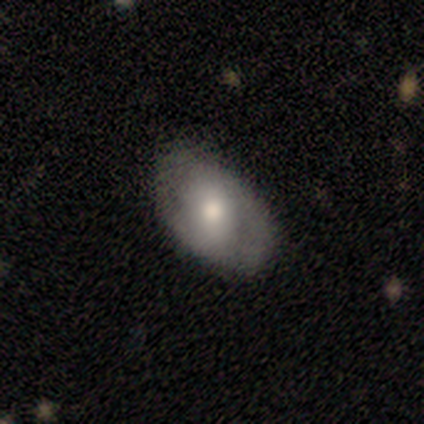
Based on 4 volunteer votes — Smooth or featured? 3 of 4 (75%) said smooth. How rounded? 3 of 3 (100%) said in between. Merging? 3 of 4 (75%) said none.